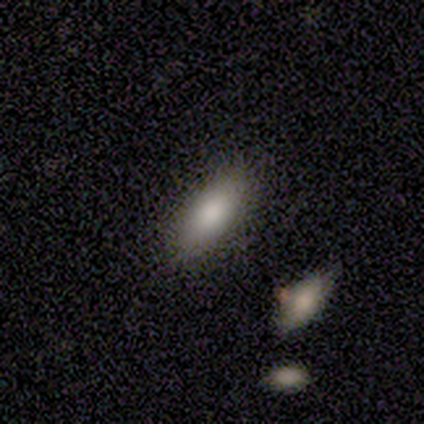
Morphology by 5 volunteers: type=smooth (100%); roundness=in between (100%); merging=none (80%).